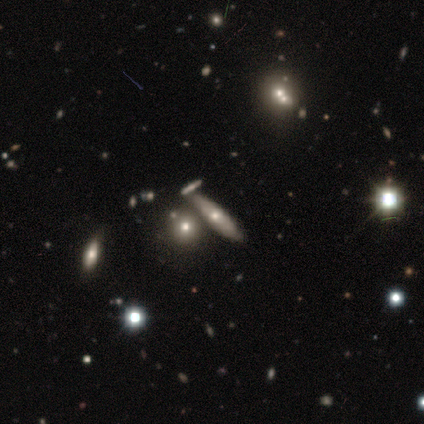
This is likely a featured or disk galaxy (60%). It is likely viewed edge-on (67%). Edge-on bulge: possibly none (50%, tied with rounded). Merging: possibly merger (50%).